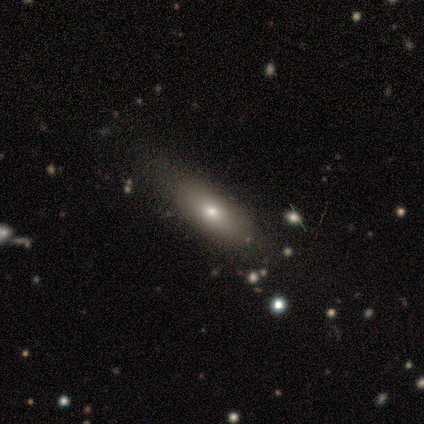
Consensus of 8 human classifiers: A smooth galaxy with no disk features (88%) that is in between round and cigar-shaped (71%). Merging: none (57%).